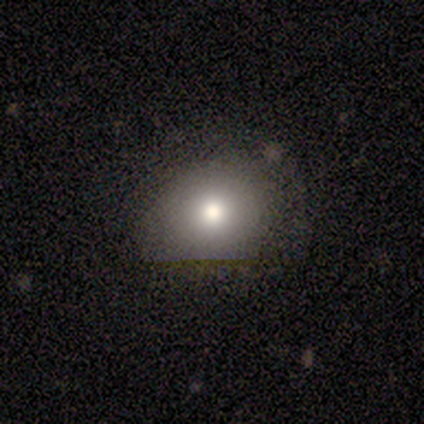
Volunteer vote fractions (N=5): smooth_or_featured: smooth (p=1.00)
how_rounded: round (p=0.60) [alt: in between p=0.20]
merging: none (p=0.80) [alt: major disturbance p=0.20]